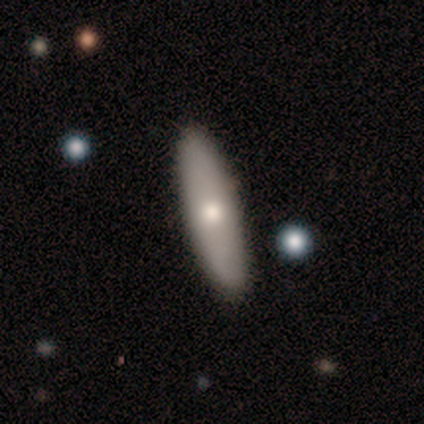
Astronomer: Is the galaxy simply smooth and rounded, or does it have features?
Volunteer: smooth — 60% (runner-up: featured or disk, 40%).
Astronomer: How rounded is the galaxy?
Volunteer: in between — 67%.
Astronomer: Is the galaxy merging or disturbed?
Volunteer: none — 100%.